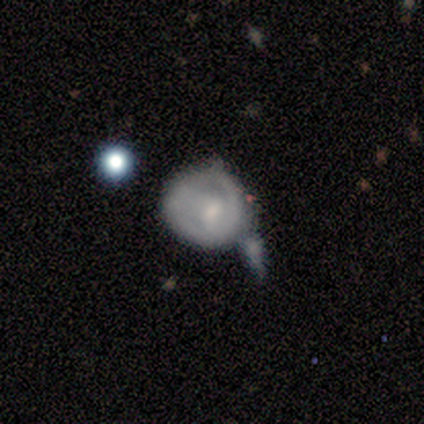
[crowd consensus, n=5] This is marginally a featured or disk galaxy (40%, tied with star or artifact). It is clearly not viewed edge-on (100%). Bar: clearly no (100%). Spiral arm pattern: possibly yes (50%, tied with no). Spiral arm count: clearly can't tell (100%). Spiral winding: clearly loose (100%). Central bulge: clearly small (100%). Merging: likely major disturbance (67%).